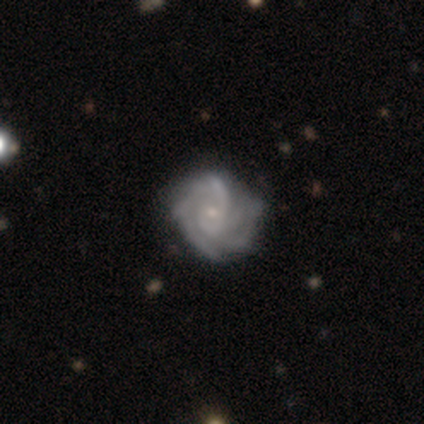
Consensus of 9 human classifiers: Volunteers were most divided on "spiral arm count": 4: 33%, 1: 22%, can't tell: 22%, 3: 11%, more than 4: 11%, 2: 0%. More confident: smooth or featured — featured or disk (100%); edge-on disk — no (100%); spiral arms — yes (100%); bulge size — small (89%); merging — none (78%); spiral winding — tight (67%); bar — no (56%).